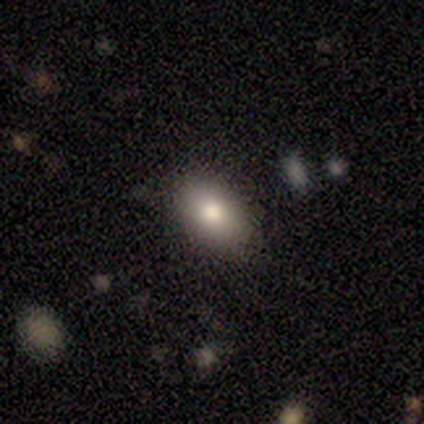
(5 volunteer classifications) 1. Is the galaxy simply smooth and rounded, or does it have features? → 80% smooth, 20% star or artifact, 0% featured or disk.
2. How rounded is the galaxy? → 75% in between, 25% round, 0% cigar-shaped.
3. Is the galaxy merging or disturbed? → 100% none, 0% minor disturbance, 0% major disturbance, 0% merger.